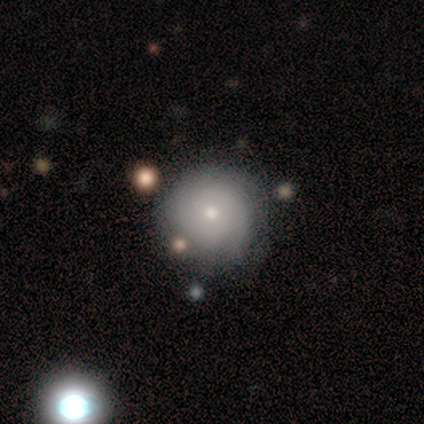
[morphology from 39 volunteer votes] Smooth or featured? 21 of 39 (54%) said smooth. How rounded? 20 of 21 (95%) said round. Merging? 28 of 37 (76%) said none.